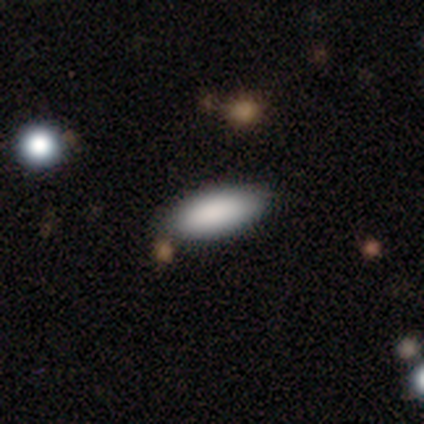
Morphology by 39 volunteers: smooth-or-featured: smooth: 92% | featured or disk: 5% | star or artifact: 3%
  how-rounded: in between: 78% | cigar-shaped: 22% | round: 0%
  merging: none: 95% | minor disturbance: 3% | major disturbance: 3% | merger: 0%